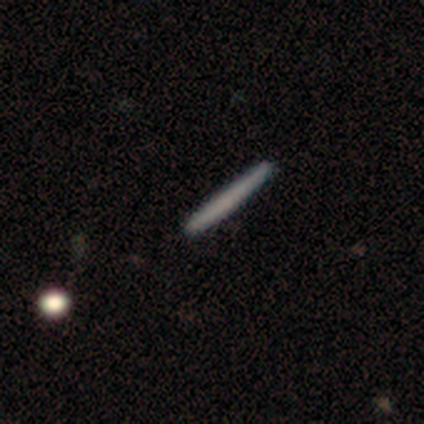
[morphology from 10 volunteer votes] smooth_or_featured: smooth (p=0.80) [alt: featured or disk p=0.20]
how_rounded: cigar-shaped (p=1.00)
merging: none (p=1.00)